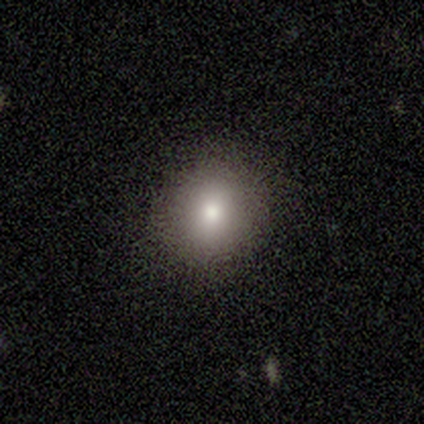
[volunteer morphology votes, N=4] Smooth or featured? 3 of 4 (75%) said smooth. How rounded? 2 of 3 (67%) said round. Merging? 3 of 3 (100%) said none.